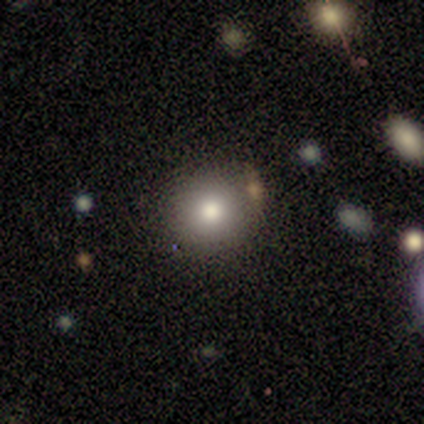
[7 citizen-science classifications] Smooth or featured: smooth — 71% (featured or disk — 14%)
How rounded: round — 60% (in between — 40%)
Merging: none — 67% (minor disturbance — 17%)